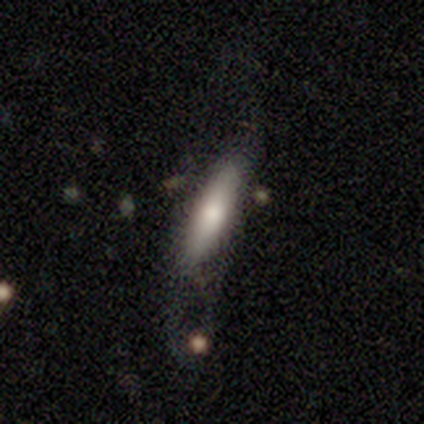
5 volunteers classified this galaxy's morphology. Volunteers were most divided on "how rounded" (2-way tie): in between: 50%, cigar-shaped: 50%, round: 0%. Remaining: smooth or featured — smooth (80%); merging — major disturbance (40%).